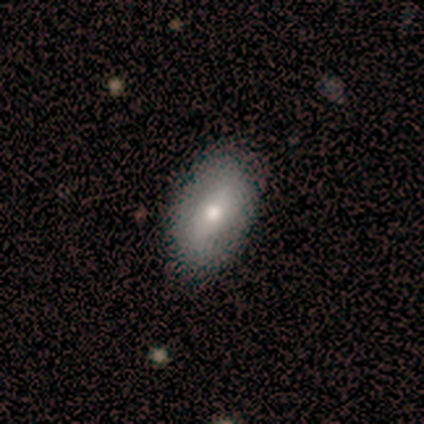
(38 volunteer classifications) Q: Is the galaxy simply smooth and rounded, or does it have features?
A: smooth — 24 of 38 (63%).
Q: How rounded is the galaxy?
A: in between — 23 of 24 (96%).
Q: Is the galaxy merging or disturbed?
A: none — 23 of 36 (64%).